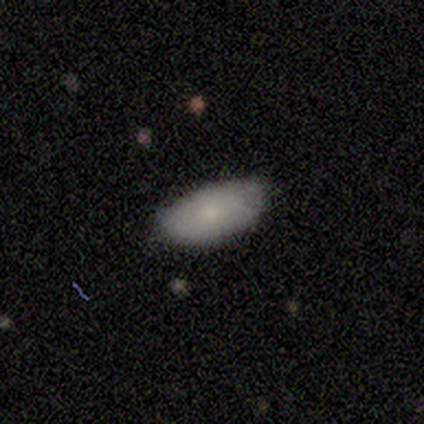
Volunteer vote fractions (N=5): Volunteers were most divided on "smooth or featured": smooth: 60%, featured or disk: 40%, star or artifact: 0%. More confident: how rounded — in between (100%); merging — none (80%).